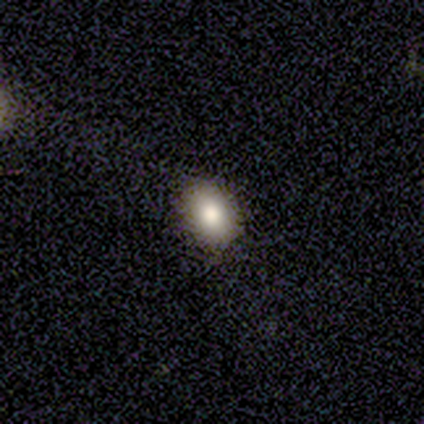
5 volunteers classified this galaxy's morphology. smooth_or_featured: star or artifact (p=0.60) [alt: smooth p=0.40]